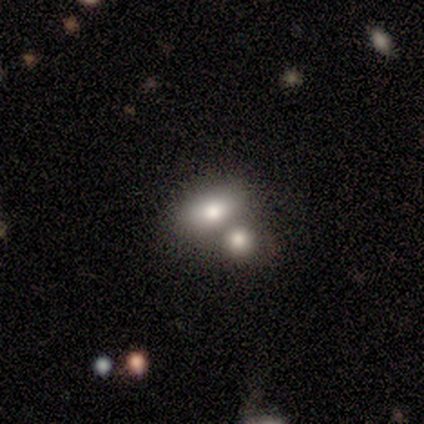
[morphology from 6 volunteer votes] Smooth or featured: smooth — 67% (featured or disk — 33%)
How rounded: round — 50% (tied with in between — 50%)
Merging: merger — 67% (none — 33%)